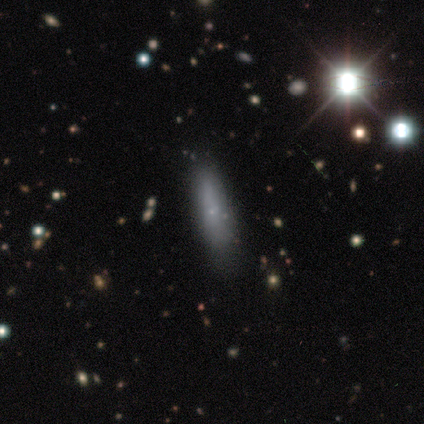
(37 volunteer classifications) smooth-or-featured: smooth: 62% | featured or disk: 27% | star or artifact: 11%
  how-rounded: cigar-shaped: 74% | in between: 22% | round: 4%
  merging: none: 73% | minor disturbance: 15% | major disturbance: 9% | merger: 3%